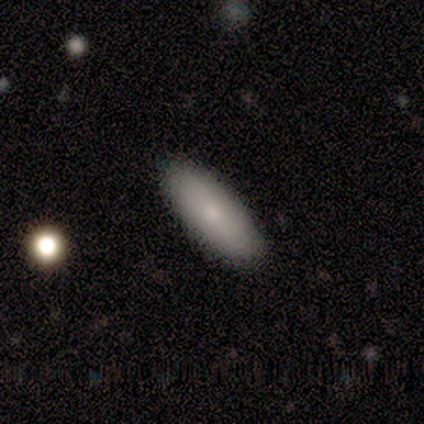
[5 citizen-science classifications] This appears to be a smooth galaxy with no disk features (100%) that is in between round and cigar-shaped (80%). Merging: none (100%).